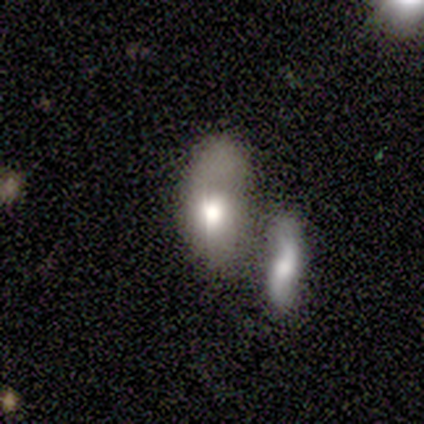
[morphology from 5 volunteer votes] This is likely a smooth galaxy (60%). How rounded: likely in between (67%). Merging: possibly minor disturbance (50%).